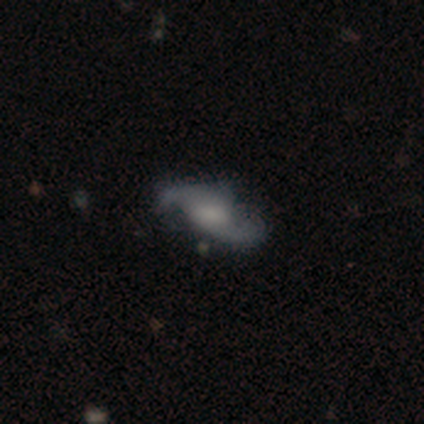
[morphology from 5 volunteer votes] A featured or disk galaxy (100%) with no bar (75%), 2 (100%) loose (75%) spiral arms (100%) and a dominant central bulge (25%, tied with large, moderate and none). Merging: none (60%).